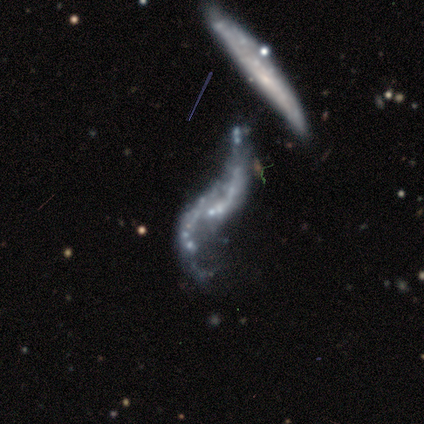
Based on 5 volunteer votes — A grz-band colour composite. It shows a featured or disk galaxy (100%) with no bar (80%), 2 (100%) loose (100%) spiral arms (60%) and no central bulge (100%). Merging: merger (60%).